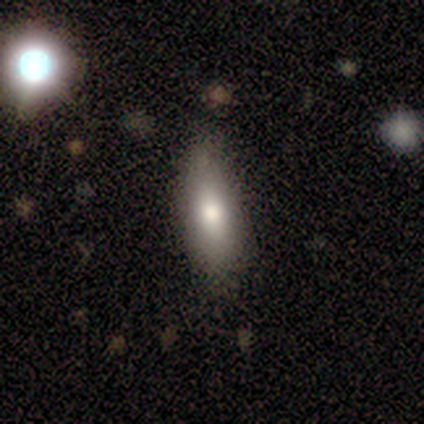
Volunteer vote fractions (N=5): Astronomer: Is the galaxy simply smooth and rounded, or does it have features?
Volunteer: smooth — 100%.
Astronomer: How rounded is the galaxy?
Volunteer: in between — 80%.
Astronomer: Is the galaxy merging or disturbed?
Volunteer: none — 60% (runner-up: minor disturbance, 40%).